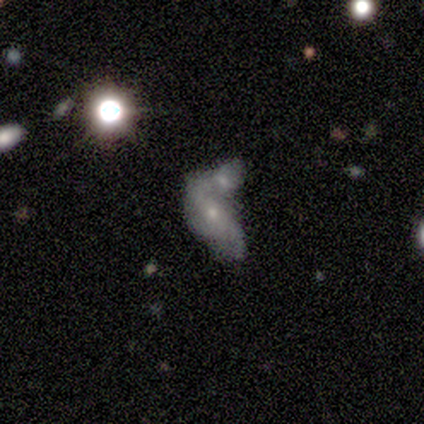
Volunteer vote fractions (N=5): A featured or disk galaxy (60%) with no bar (67%), 2 (50%, tied with can't tell) tight (50%, tied with loose) spiral arms (67%) and a large central bulge (33%, tied with moderate and small).

Vote fractions:
- Smooth or featured? featured or disk: 60% / smooth: 40% / star or artifact: 0%
- Edge-on disk? no: 100% / yes: 0%
- Bar? no: 67% / strong: 33% / weak: 0%
- Spiral arms? yes: 67% / no: 33%
- Spiral winding? tight: 50% (tied) / loose: 50% (tied) / medium: 0%
- Spiral arm count? 2: 50% (tied) / can't tell: 50% (tied) / 1: 0% / 3: 0% / 4: 0% / more than 4: 0%
- Bulge size? large: 33% (tied) / moderate: 33% (tied) / small: 33% (tied) / dominant: 0% / none: 0%
- Merging? merger: 60% / none: 20% / minor disturbance: 20% / major disturbance: 0%